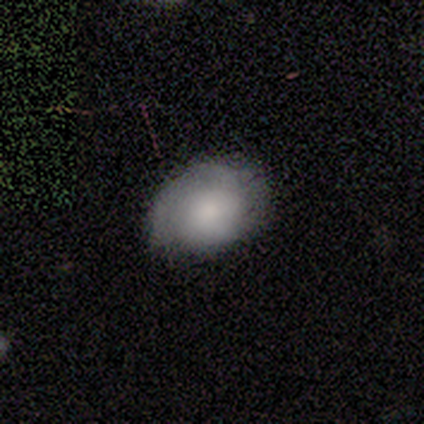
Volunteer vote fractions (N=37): This appears to be a smooth galaxy with no disk features (76%) that is in between round and cigar-shaped (71%). Merging: none (69%).